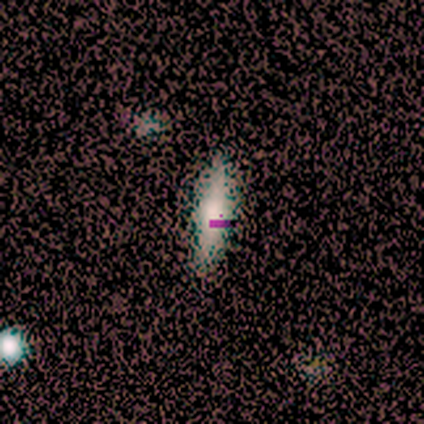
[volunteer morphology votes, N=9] smooth_or_featured: smooth (p=0.44) [alt: featured or disk p=0.33]
how_rounded: cigar-shaped (p=1.00)
merging: none (p=1.00)